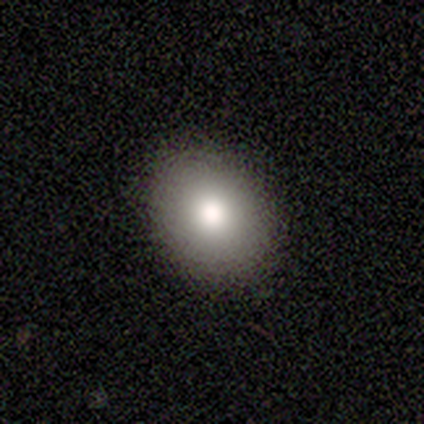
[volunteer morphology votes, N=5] smooth-or-featured: smooth: 100% | featured or disk: 0% | star or artifact: 0%
  how-rounded: in between: 60% | round: 40% | cigar-shaped: 0%
  merging: none: 80% | minor disturbance: 20% | major disturbance: 0% | merger: 0%